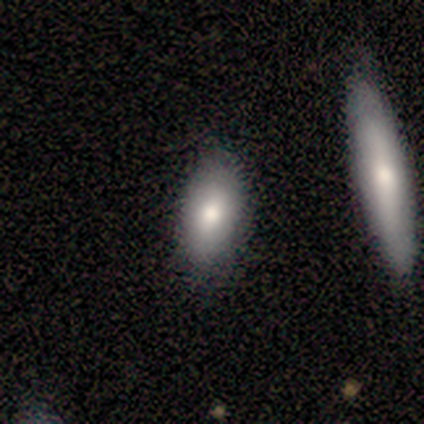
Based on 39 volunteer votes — smooth-or-featured: smooth: 67% | featured or disk: 23% | star or artifact: 10%
  how-rounded: in between: 88% | round: 8% | cigar-shaped: 4%
  merging: none: 86% | minor disturbance: 9% | merger: 6% | major disturbance: 0%